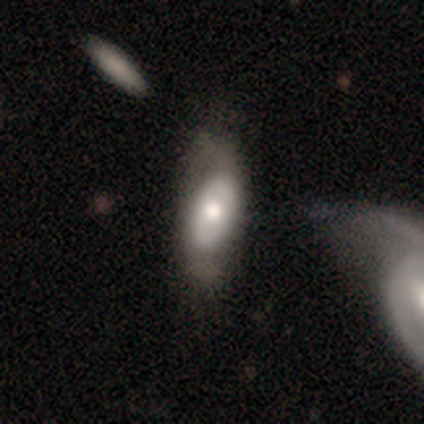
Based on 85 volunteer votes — Volunteers were most divided on "merging": none: 43%, minor disturbance: 32%, major disturbance: 16%, merger: 9%. More confident: edge-on disk — no (93%); bar — no (81%); spiral arms — no (64%); bulge size — moderate (62%); smooth or featured — featured or disk (53%).